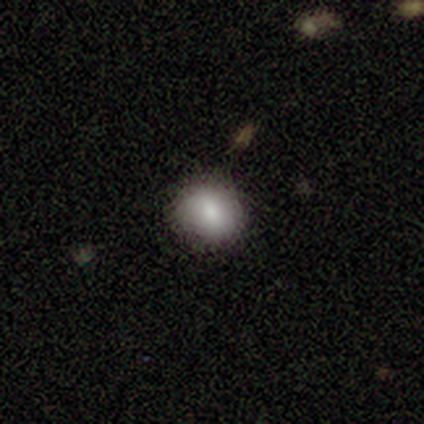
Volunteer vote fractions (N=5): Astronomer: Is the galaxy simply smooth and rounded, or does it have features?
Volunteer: smooth — 80%.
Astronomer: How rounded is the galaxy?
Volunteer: round — 100%.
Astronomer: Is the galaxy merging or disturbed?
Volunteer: none — 100%.